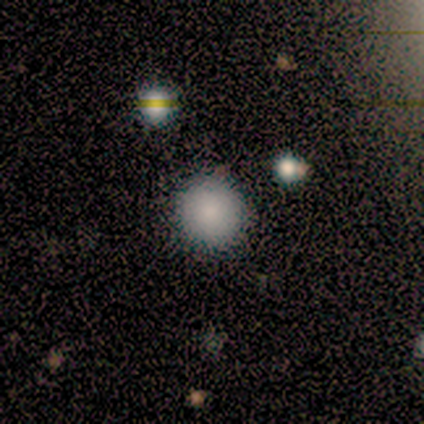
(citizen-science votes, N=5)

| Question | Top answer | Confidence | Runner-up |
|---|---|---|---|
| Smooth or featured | smooth | 80% | star or artifact (20%) |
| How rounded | round | 100% | — |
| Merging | none | 100% | — |